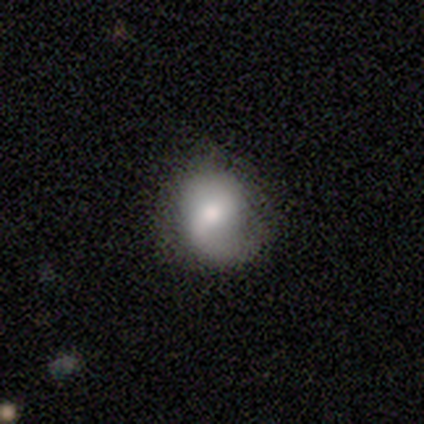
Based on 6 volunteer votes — Overall: smooth (67%; featured or disk 33%). How rounded: round (50%, tied with in between). Merging: none (67%; minor disturbance 33%).